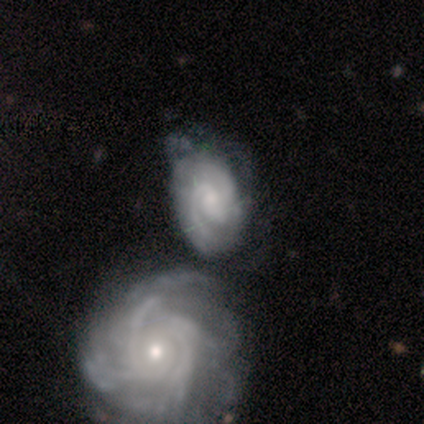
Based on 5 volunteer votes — Smooth or featured? featured or disk (100%)
Edge-on disk? no (100%)
Bar? weak (60%)
Spiral arms? yes (100%)
Spiral winding? tight (40%, tied with medium)
Spiral arm count? 2 (60%)
Bulge size? small (80%)
Merging? none (60%)